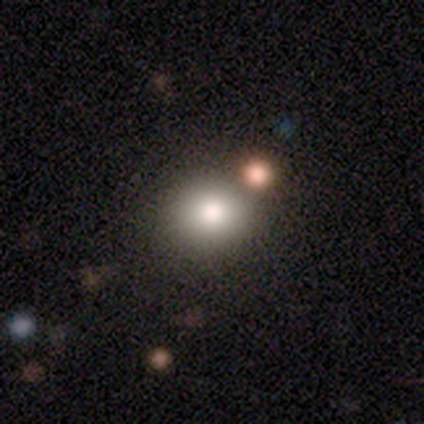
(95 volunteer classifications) Smooth or featured?
  - smooth: 76% *
  - star or artifact: 17%
  - featured or disk: 7%
How rounded?
  - round: 81% *
  - in between: 19%
  - cigar-shaped: 0%
Merging?
  - none: 78% *
  - merger: 13%
  - minor disturbance: 5%
  - major disturbance: 4%